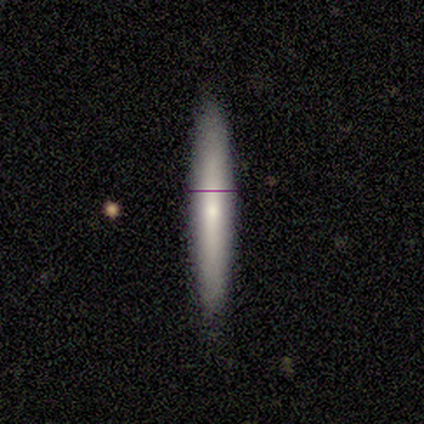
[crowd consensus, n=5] Q: Smooth or featured?
A: smooth (60%); runner-up: featured or disk (40%)
Q: How rounded?
A: cigar-shaped (67%); runner-up: in between (33%)
Q: Merging?
A: none (100%)